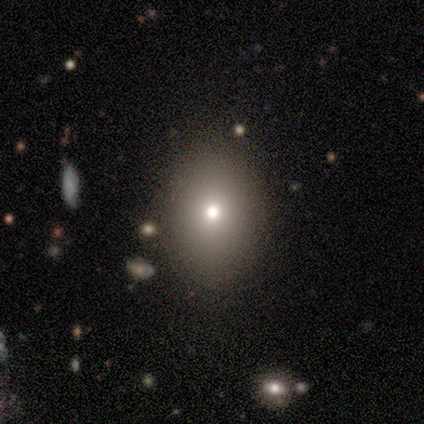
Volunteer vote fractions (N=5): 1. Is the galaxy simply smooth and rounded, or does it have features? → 80% smooth, 20% featured or disk, 0% star or artifact.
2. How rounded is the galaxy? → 100% in between, 0% round, 0% cigar-shaped.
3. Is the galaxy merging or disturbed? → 80% none, 20% minor disturbance, 0% major disturbance, 0% merger.